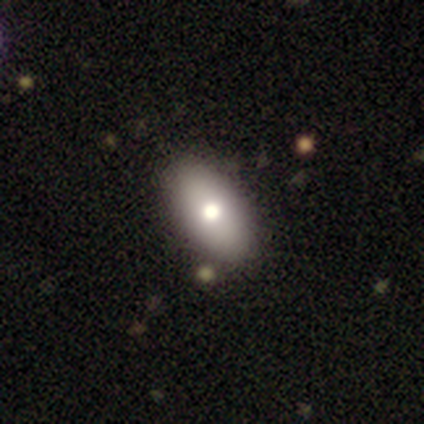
Smooth or featured?
  - smooth: 100% *
  - featured or disk: 0%
  - star or artifact: 0%
How rounded?
  - in between: 100% *
  - round: 0%
  - cigar-shaped: 0%
Merging?
  - none: 100% *
  - minor disturbance: 0%
  - major disturbance: 0%
  - merger: 0%